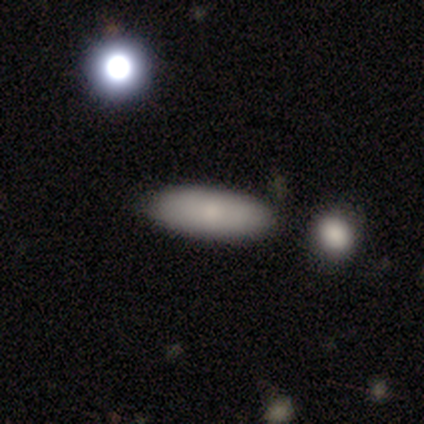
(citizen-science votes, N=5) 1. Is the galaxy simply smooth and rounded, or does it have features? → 60% featured or disk, 40% smooth, 0% star or artifact.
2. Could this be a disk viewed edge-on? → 67% no, 33% yes.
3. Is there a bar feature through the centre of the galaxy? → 50% weak (tied), 50% no (tied), 0% strong.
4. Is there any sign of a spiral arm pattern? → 100% no, 0% yes.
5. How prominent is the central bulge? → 50% moderate (tied), 50% none (tied), 0% dominant, 0% large, 0% small.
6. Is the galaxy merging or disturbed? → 80% none, 20% minor disturbance, 0% major disturbance, 0% merger.